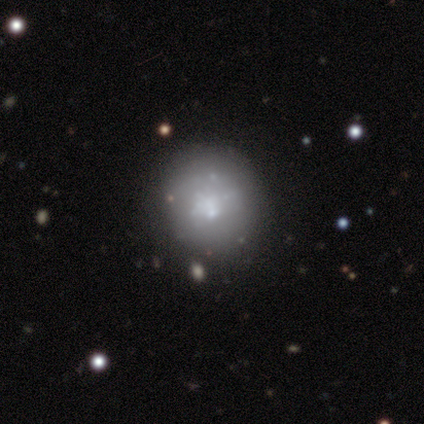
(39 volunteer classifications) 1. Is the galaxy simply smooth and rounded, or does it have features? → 56% smooth, 33% featured or disk, 10% star or artifact.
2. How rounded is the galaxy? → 95% round, 5% in between, 0% cigar-shaped.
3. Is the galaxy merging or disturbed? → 66% none, 23% minor disturbance, 9% merger, 3% major disturbance.